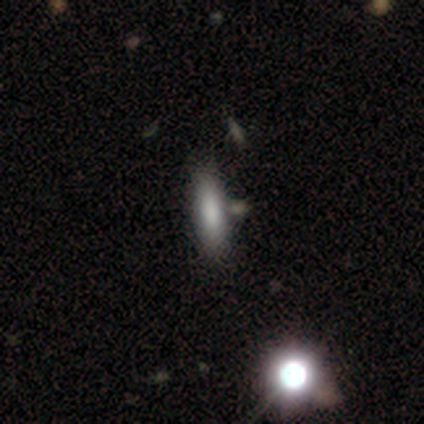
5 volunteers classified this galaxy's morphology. Q: Smooth or featured?
A: smooth (80%); runner-up: star or artifact (20%)
Q: How rounded?
A: in between (50%); tied with: cigar-shaped (50%)
Q: Merging?
A: none (100%)